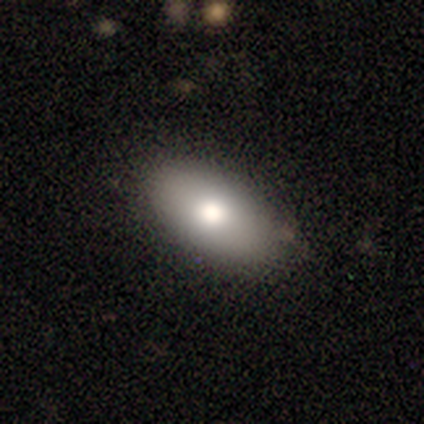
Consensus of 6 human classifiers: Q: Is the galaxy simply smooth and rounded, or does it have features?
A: smooth — 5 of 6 (83%).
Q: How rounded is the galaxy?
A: in between — 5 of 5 (100%).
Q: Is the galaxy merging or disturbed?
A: none — 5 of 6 (83%).